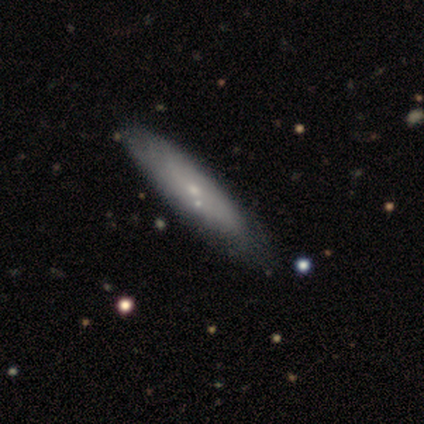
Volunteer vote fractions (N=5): Smooth or featured? 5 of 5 (100%) said smooth. How rounded? 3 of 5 (60%) said in between. Merging? 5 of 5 (100%) said none.